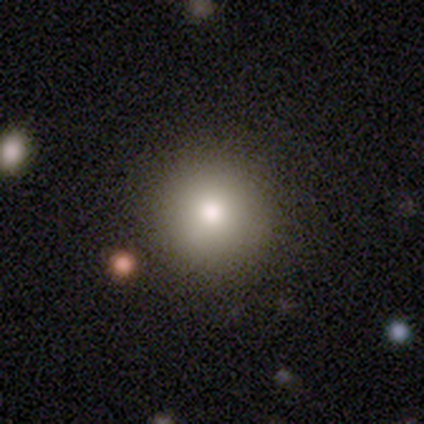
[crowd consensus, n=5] smooth 80%, star or artifact 20%, featured or disk 0%. Down the decision tree: how rounded — round (100%); merging — none (100%).